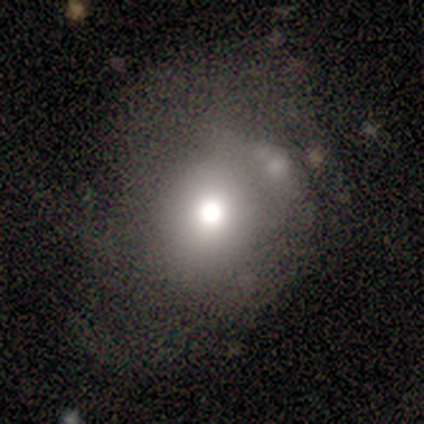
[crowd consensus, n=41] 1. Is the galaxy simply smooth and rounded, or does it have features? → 51% smooth, 34% featured or disk, 15% star or artifact.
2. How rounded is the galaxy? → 71% round, 24% in between, 5% cigar-shaped.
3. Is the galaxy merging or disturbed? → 46% none, 26% major disturbance, 20% minor disturbance, 9% merger.